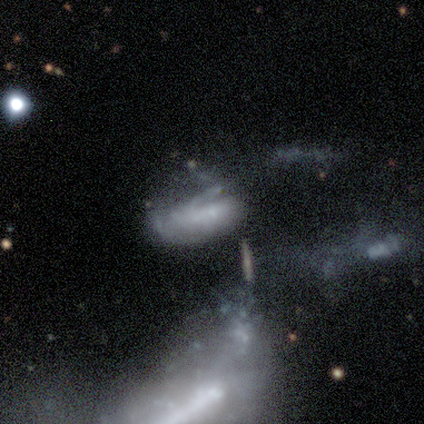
Overall: featured or disk (80%). Edge-on disk: no (100%). Bar: no (75%). Spiral arms: yes (75%). Spiral arm count: 1 (67%; 3 33%). Spiral winding: tight (33%, tied with medium and loose). Bulge size: small (50%, tied with none). Merging: merger (100%).